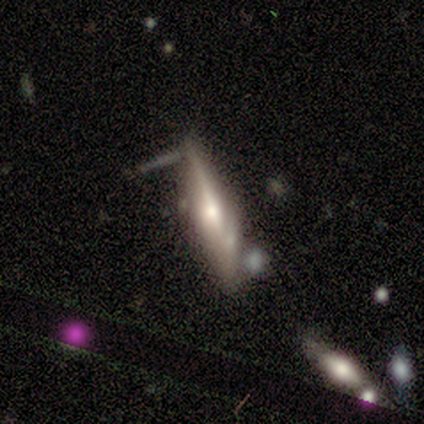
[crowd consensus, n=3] This appears to be a featured or disk galaxy (67%) viewed edge-on (100%) with a rounded central bulge (100%). Merging: none (100%).